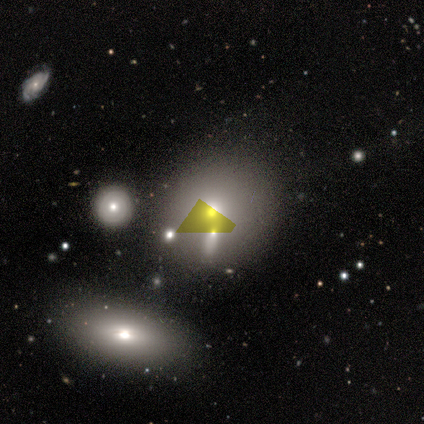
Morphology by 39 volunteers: type=smooth (54%); roundness=round (76%); merging=none (43%).